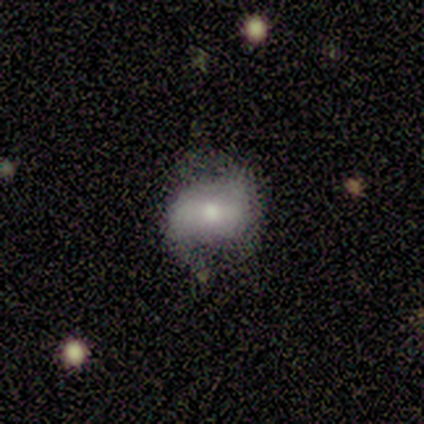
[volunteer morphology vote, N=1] Smooth or featured?
  - featured or disk: 100% *
  - smooth: 0%
  - star or artifact: 0%
Edge-on disk?
  - no: 100% *
  - yes: 0%
Bar?
  - strong: 100% *
  - weak: 0%
  - no: 0%
Spiral arms?
  - yes: 100% *
  - no: 0%
Spiral winding?
  - loose: 100% *
  - tight: 0%
  - medium: 0%
Spiral arm count?
  - can't tell: 100% *
  - 1: 0%
  - 2: 0%
  - 3: 0%
  - 4: 0%
  - more than 4: 0%
Bulge size?
  - moderate: 100% *
  - dominant: 0%
  - large: 0%
  - small: 0%
  - none: 0%
Merging?
  - none: 100% *
  - minor disturbance: 0%
  - major disturbance: 0%
  - merger: 0%